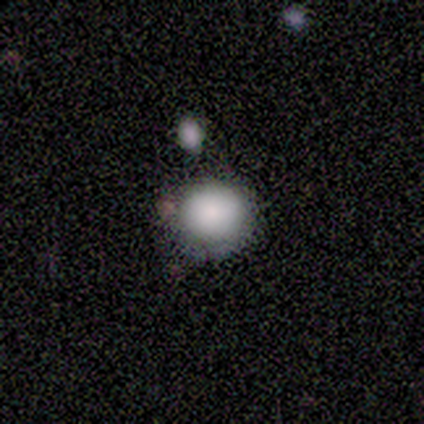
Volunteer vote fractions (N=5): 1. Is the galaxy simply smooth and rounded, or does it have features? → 80% smooth, 20% star or artifact, 0% featured or disk.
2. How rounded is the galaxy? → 50% round (tied), 50% in between (tied), 0% cigar-shaped.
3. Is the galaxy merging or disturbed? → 100% none, 0% minor disturbance, 0% major disturbance, 0% merger.